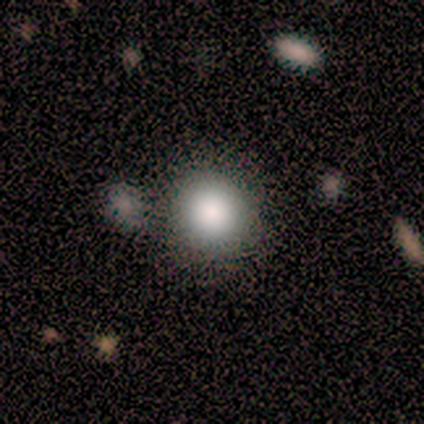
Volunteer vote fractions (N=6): Overall: smooth (50%; featured or disk 33%). How rounded: round (100%). Merging: none (60%; merger 40%).